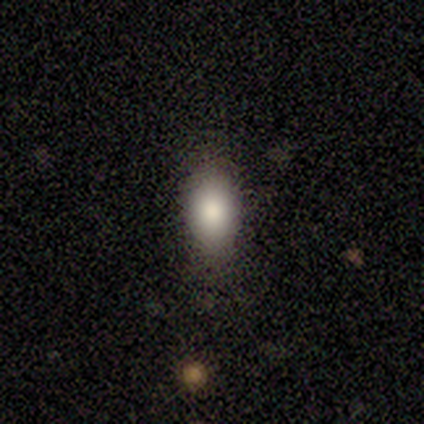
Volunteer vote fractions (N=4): Smooth or featured?
  - smooth: 75% *
  - star or artifact: 25%
  - featured or disk: 0%
How rounded?
  - in between: 67% *
  - cigar-shaped: 33%
  - round: 0%
Merging?
  - none: 100% *
  - minor disturbance: 0%
  - major disturbance: 0%
  - merger: 0%